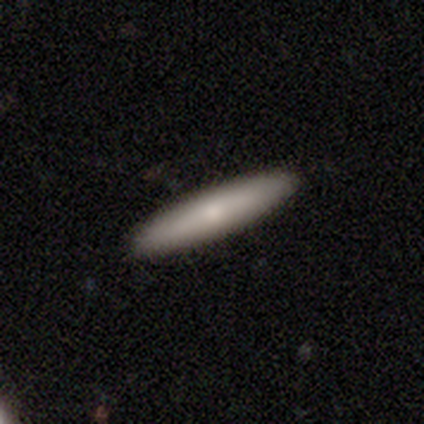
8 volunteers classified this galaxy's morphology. This appears to be a smooth galaxy with no disk features (75%) that is cigar-shaped (100%). Merging: none (88%).